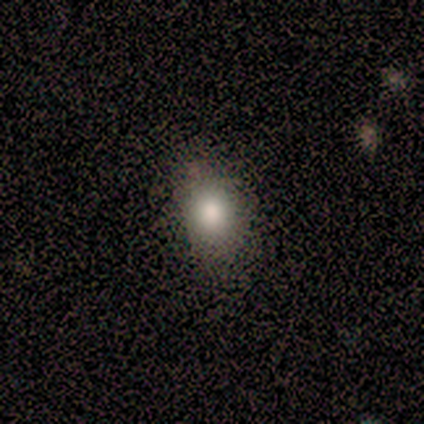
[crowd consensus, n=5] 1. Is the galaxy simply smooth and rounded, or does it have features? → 100% smooth, 0% featured or disk, 0% star or artifact.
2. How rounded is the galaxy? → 60% round, 40% in between, 0% cigar-shaped.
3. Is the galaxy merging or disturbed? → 100% none, 0% minor disturbance, 0% major disturbance, 0% merger.